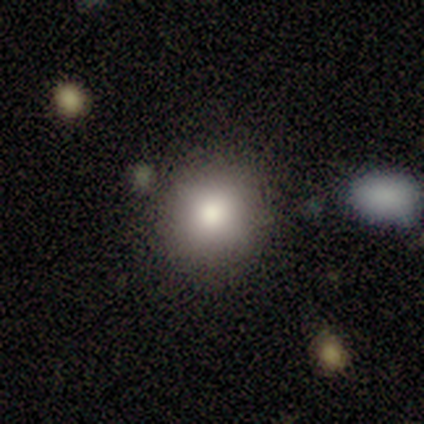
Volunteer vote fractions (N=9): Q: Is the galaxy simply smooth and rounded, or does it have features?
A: smooth — 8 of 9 (89%).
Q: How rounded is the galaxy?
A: round — 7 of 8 (88%).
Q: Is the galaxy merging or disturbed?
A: none — 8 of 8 (100%).